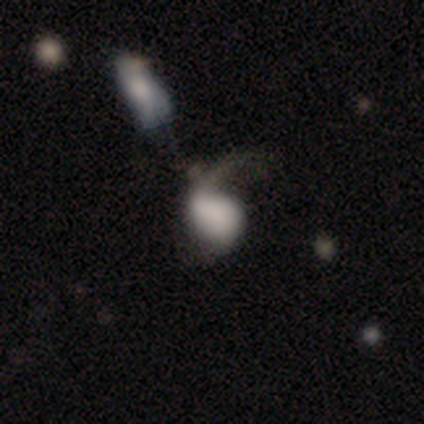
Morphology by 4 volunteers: Smooth or featured: smooth — 75% (featured or disk — 25%)
How rounded: in between — 67% (round — 33%)
Merging: major disturbance — 50% (tied with merger — 50%)